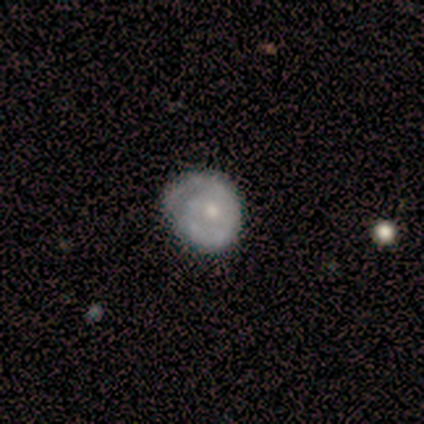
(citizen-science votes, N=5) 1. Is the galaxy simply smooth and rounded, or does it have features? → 80% featured or disk, 20% smooth, 0% star or artifact.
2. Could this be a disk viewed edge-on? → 100% no, 0% yes.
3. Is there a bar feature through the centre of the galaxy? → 75% no, 25% weak, 0% strong.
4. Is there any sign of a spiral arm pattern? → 50% yes (tied), 50% no (tied).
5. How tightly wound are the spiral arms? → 100% tight, 0% medium, 0% loose.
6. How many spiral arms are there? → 100% 1, 0% 2, 0% 3, 0% 4, 0% more than 4, 0% can't tell.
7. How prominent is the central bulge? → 100% small, 0% dominant, 0% large, 0% moderate, 0% none.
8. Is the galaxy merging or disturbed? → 100% none, 0% minor disturbance, 0% major disturbance, 0% merger.